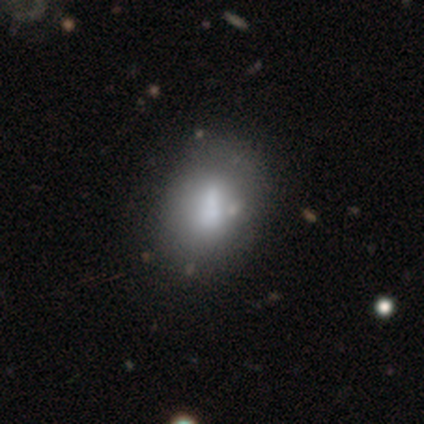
Smooth or featured?
  - smooth: 60% *
  - featured or disk: 40%
  - star or artifact: 0%
How rounded?
  - in between: 67% *
  - round: 33%
  - cigar-shaped: 0%
Merging?
  - minor disturbance: 60% *
  - none: 40%
  - major disturbance: 0%
  - merger: 0%